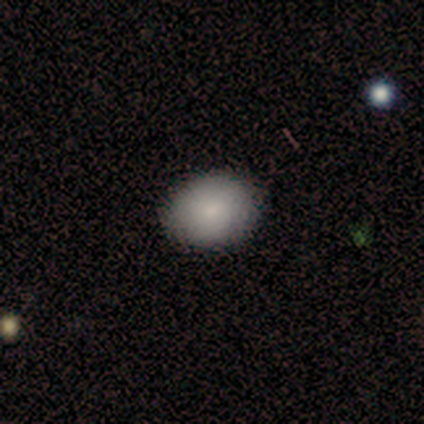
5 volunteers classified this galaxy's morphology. Overall: smooth (60%; featured or disk 40%). How rounded: in between (100%). Merging: none (80%).